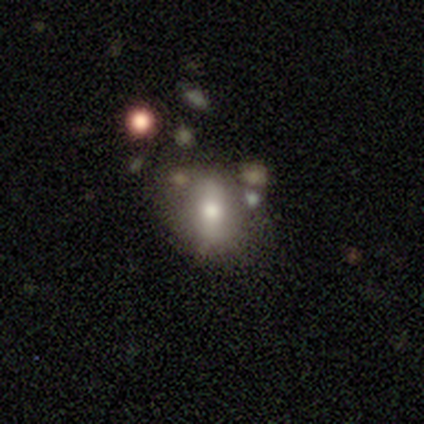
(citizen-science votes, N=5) Overall: smooth (100%). How rounded: round (60%; in between 40%). Merging: none (60%; major disturbance 20%).